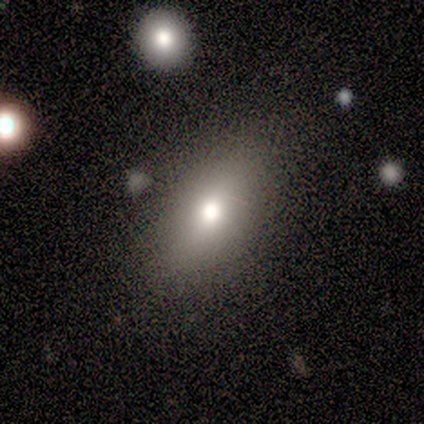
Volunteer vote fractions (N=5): Overall: smooth (80%). How rounded: in between (100%). Merging: none (75%).